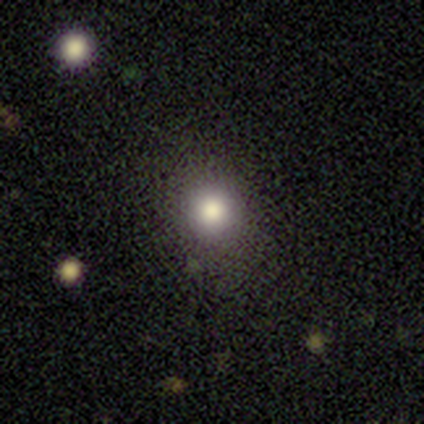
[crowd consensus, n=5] A smooth galaxy with no disk features (60%) that is round (67%). Merging: none (100%).